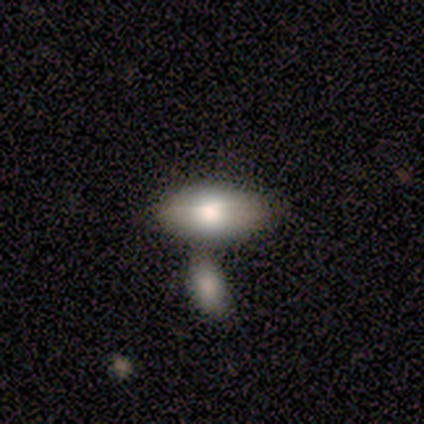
Q: Smooth or featured?
A: smooth (78%); runner-up: featured or disk (11%)
Q: How rounded?
A: in between (100%)
Q: Merging?
A: none (38%); tied with: minor disturbance (38%)